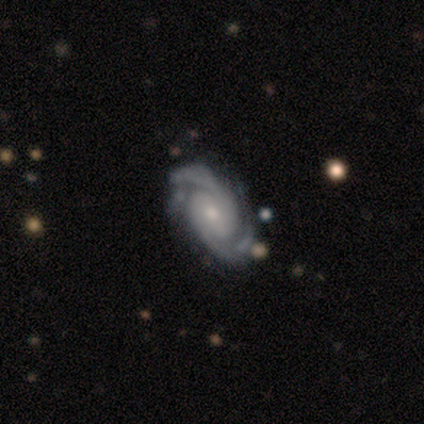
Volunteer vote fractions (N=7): smooth_or_featured: featured or disk (p=1.00)
disk_edge_on: no (p=1.00)
bar: no (p=0.57) [alt: weak p=0.43]
has_spiral_arms: yes (p=1.00)
spiral_winding: tight (p=0.86) [alt: medium p=0.14]
spiral_arm_count: 2 (p=0.71) [alt: 3 p=0.14]
bulge_size: small (p=0.71) [alt: moderate p=0.29]
merging: none (p=0.86) [alt: major disturbance p=0.14]